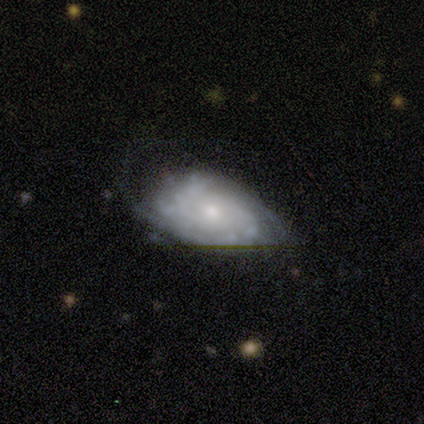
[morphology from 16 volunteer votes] Q: Smooth or featured?
A: featured or disk (88%); runner-up: smooth (12%)
Q: Edge-on disk?
A: no (100%)
Q: Bar?
A: no (93%); runner-up: strong (7%)
Q: Spiral arms?
A: yes (71%); runner-up: no (29%)
Q: Spiral winding?
A: tight (60%); runner-up: medium (30%)
Q: Spiral arm count?
A: can't tell (60%); runner-up: 3 (20%)
Q: Bulge size?
A: moderate (43%); runner-up: small (29%)
Q: Merging?
A: major disturbance (38%); runner-up: none (31%)